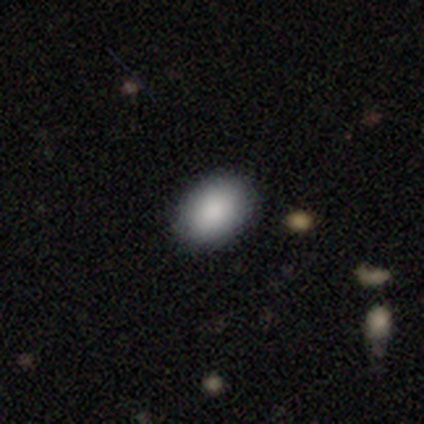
A smooth galaxy with no disk features (100%) that is in between round and cigar-shaped (100%).

Vote fractions:
- Smooth or featured? smooth: 100% / featured or disk: 0% / star or artifact: 0%
- How rounded? in between: 100% / round: 0% / cigar-shaped: 0%
- Merging? none: 80% / minor disturbance: 20% / major disturbance: 0% / merger: 0%